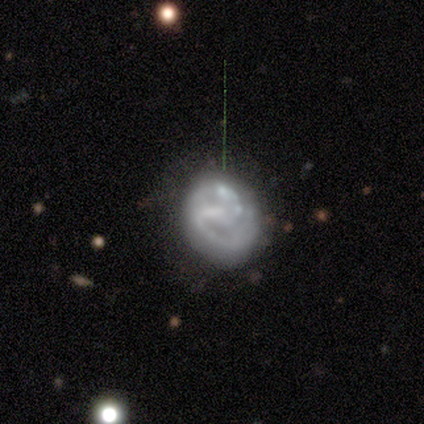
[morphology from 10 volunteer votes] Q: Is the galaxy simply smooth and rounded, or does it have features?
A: featured or disk — 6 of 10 (60%).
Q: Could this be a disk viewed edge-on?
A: no — 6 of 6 (100%).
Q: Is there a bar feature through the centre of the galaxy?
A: no — 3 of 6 (50%).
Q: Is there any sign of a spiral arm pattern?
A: no — 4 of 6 (67%).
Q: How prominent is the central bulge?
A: none — 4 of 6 (67%).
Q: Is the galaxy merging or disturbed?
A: minor disturbance — 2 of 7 (29%, tied with major disturbance and merger).